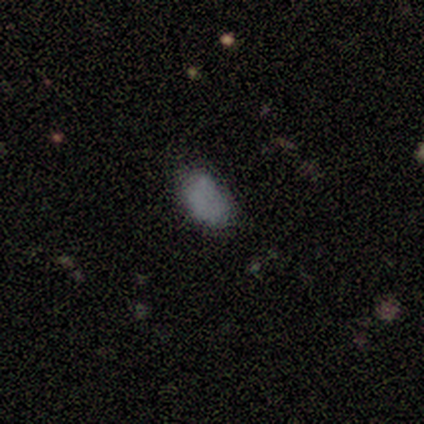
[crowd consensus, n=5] Consensus on every question: smooth or featured — smooth (100%); how rounded — in between (100%); merging — none (100%).